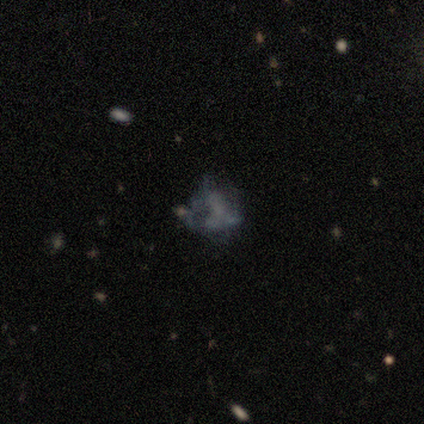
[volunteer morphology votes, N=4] type=featured or disk (75%); edge-on=no (100%); bar=no (100%); spiral arms=no (100%); bulge=none (100%); merging=none (67%).